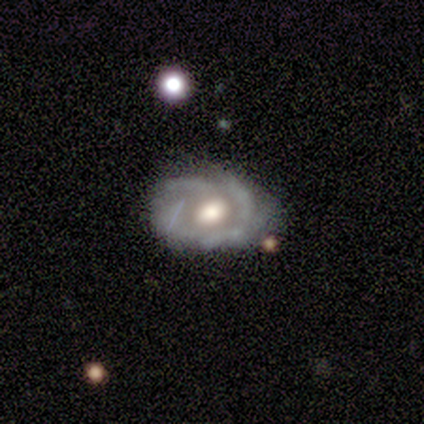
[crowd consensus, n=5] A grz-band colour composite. It shows a featured or disk galaxy (100%) with no bar (60%), tight (80%) spiral arms (100%) and a large central bulge (60%). Merging: none (60%).